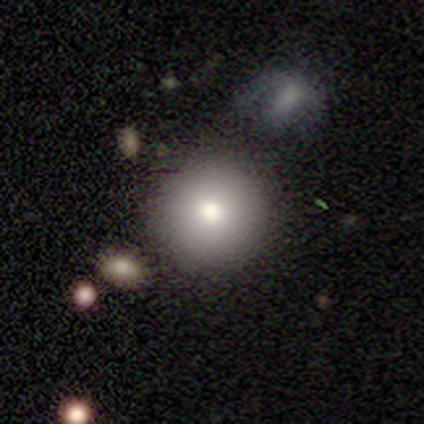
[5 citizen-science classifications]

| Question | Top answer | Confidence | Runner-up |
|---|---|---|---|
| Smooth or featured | smooth | 80% | featured or disk (20%) |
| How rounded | round | 75% | cigar-shaped (25%) |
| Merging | none | 80% | merger (20%) |